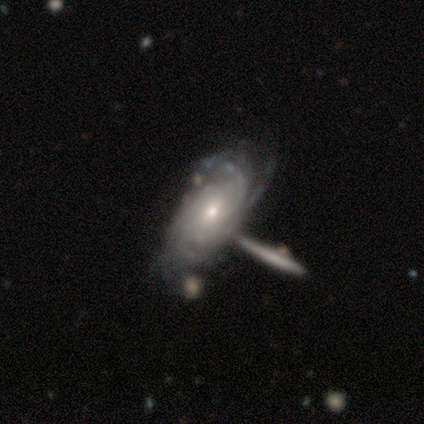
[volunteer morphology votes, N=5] featured or disk 100%, smooth 0%, star or artifact 0%. Down the decision tree: edge-on disk — no (80%); bar — no (100%); spiral arms — yes (100%); spiral arm count — more than 4 (50%); spiral winding — tight (75%); bulge size — moderate (75%); merging — merger (60%).